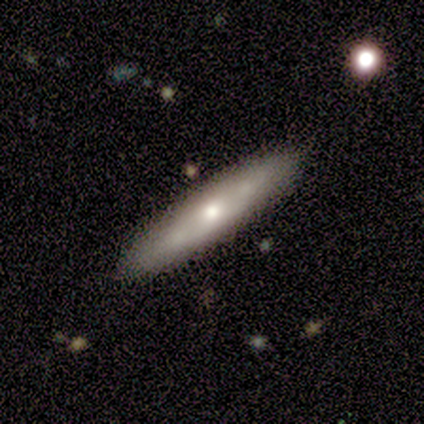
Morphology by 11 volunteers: A smooth galaxy with no disk features (55%) that is cigar-shaped (100%).

Vote fractions:
- Smooth or featured? smooth: 55% / featured or disk: 45% / star or artifact: 0%
- How rounded? cigar-shaped: 100% / round: 0% / in between: 0%
- Merging? none: 91% / minor disturbance: 9% / major disturbance: 0% / merger: 0%